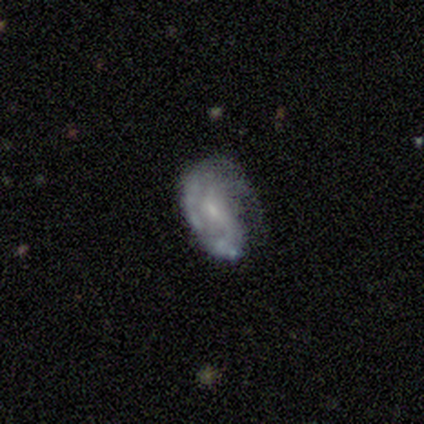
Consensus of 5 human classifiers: A featured or disk galaxy (80%) with no bar (50%), 1 (50%, tied with 2) tight (50%) spiral arms (100%) and a small central bulge (100%).

Vote fractions:
- Smooth or featured? featured or disk: 80% / smooth: 20% / star or artifact: 0%
- Edge-on disk? no: 100% / yes: 0%
- Bar? no: 50% / strong: 25% / weak: 25%
- Spiral arms? yes: 100% / no: 0%
- Spiral winding? tight: 50% / medium: 25% / loose: 25%
- Spiral arm count? 1: 50% (tied) / 2: 50% (tied) / 3: 0% / 4: 0% / more than 4: 0% / can't tell: 0%
- Bulge size? small: 100% / dominant: 0% / large: 0% / moderate: 0% / none: 0%
- Merging? none: 40% (tied) / minor disturbance: 40% (tied) / major disturbance: 20% / merger: 0%